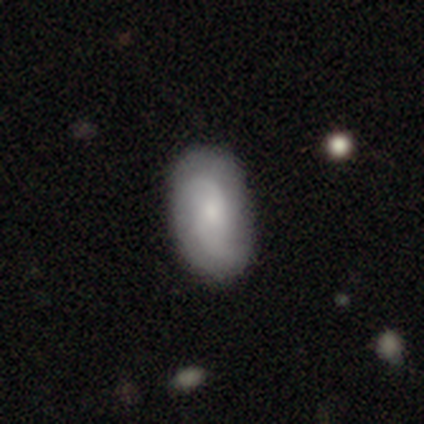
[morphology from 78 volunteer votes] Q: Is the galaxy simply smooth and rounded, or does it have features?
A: featured or disk — 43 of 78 (55%).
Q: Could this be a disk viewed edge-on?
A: no — 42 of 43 (98%).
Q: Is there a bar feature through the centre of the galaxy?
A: no — 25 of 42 (60%).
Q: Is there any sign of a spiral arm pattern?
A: yes — 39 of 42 (93%).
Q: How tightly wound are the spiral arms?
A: loose — 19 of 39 (49%).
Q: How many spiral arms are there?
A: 2 — 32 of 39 (82%).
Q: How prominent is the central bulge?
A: small — 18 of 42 (43%).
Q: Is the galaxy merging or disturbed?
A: none — 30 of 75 (40%).